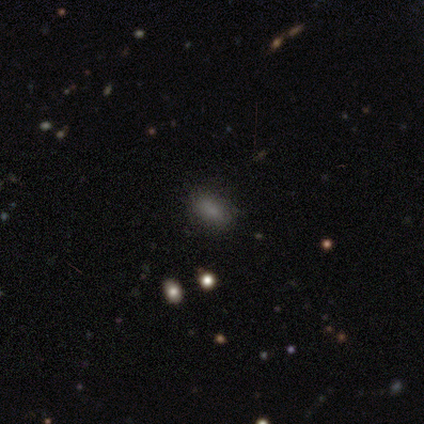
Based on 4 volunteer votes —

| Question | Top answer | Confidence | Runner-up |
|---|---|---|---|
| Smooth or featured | smooth | 50% | featured or disk (25%) |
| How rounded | in between | 100% | — |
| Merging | none | 67% | major disturbance (33%) |